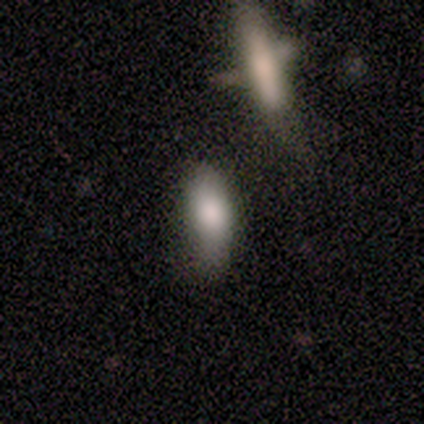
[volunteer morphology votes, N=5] type=smooth (80%); roundness=cigar-shaped (50%); merging=none (75%).